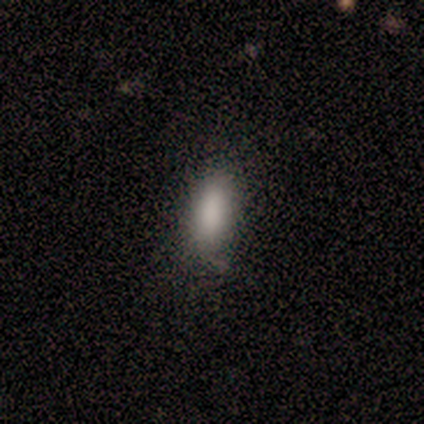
Smooth or featured? smooth (80%)
How rounded? in between (50%, tied with cigar-shaped)
Merging? none (80%)